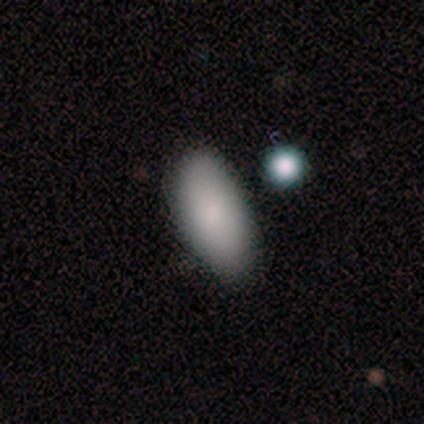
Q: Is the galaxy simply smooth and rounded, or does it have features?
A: smooth — 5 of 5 (100%).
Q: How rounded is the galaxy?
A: in between — 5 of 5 (100%).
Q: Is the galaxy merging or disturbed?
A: none — 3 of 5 (60%).